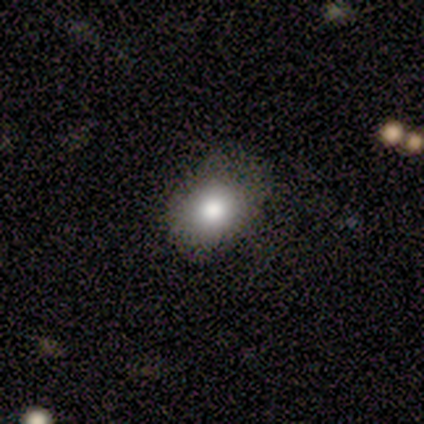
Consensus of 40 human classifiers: smooth-or-featured: smooth: 85% | star or artifact: 10% | featured or disk: 5%
  how-rounded: in between: 65% | round: 35% | cigar-shaped: 0%
  merging: none: 67% | minor disturbance: 8% | major disturbance: 0% | merger: 0%